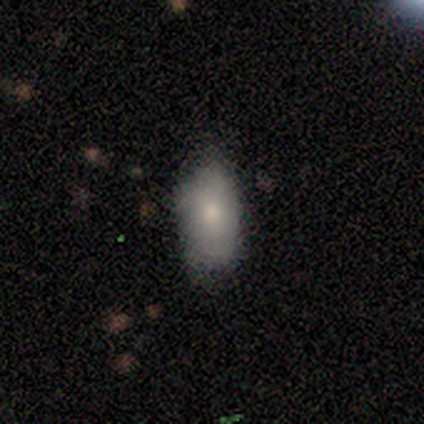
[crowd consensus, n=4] Smooth or featured? 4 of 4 (100%) said smooth. How rounded? 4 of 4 (100%) said in between. Merging? 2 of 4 (50%, tied with minor disturbance) said none.